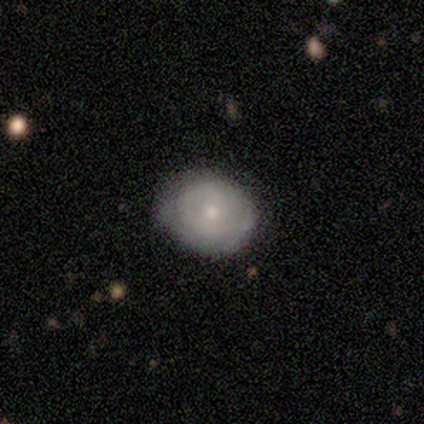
Smooth or featured: smooth — 50% (tied with featured or disk — 50%)
How rounded: round — 100%
Merging: none — 67% (minor disturbance — 33%)